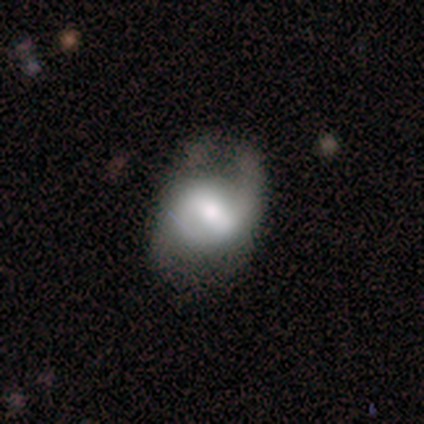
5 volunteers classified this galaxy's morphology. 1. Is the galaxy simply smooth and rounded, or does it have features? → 60% featured or disk, 20% smooth, 20% star or artifact.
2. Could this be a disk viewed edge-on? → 100% no, 0% yes.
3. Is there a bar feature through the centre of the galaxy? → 67% strong, 33% weak, 0% no.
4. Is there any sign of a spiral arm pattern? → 67% yes, 33% no.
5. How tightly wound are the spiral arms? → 50% tight (tied), 50% loose (tied), 0% medium.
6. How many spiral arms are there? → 50% 1 (tied), 50% 2 (tied), 0% 3, 0% 4, 0% more than 4, 0% can't tell.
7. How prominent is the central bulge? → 33% large (tied), 33% moderate (tied), 33% small (tied), 0% dominant, 0% none.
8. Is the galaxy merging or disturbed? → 50% minor disturbance, 25% none, 25% merger, 0% major disturbance.